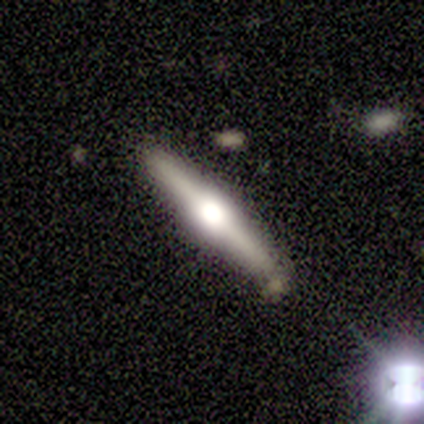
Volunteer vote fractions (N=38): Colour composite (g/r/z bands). It shows a featured or disk galaxy (82%) viewed edge-on (100%) with a rounded central bulge (77%). Merging: none (79%).